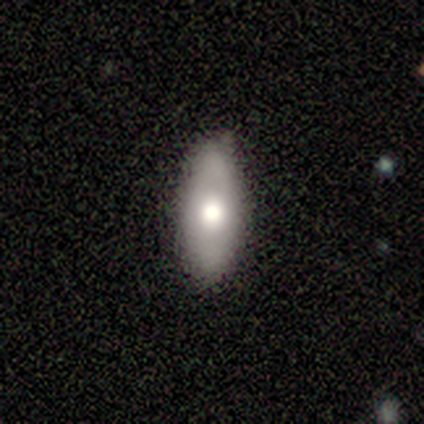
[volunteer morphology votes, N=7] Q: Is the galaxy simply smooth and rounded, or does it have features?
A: smooth — 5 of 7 (71%).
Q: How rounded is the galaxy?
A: in between — 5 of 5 (100%).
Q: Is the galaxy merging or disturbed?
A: none — 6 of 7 (86%).